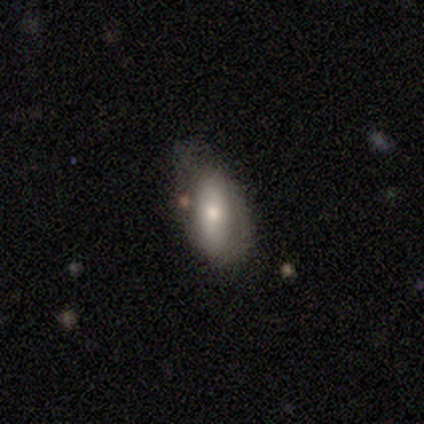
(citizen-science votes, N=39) smooth-or-featured: smooth: 54% | featured or disk: 41% | star or artifact: 5%
  how-rounded: in between: 86% | cigar-shaped: 14% | round: 0%
  merging: minor disturbance: 41% | none: 32% | major disturbance: 22% | merger: 5%